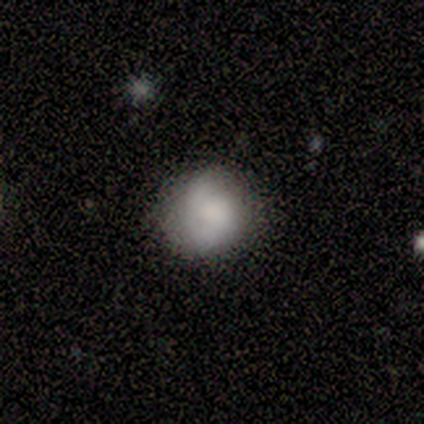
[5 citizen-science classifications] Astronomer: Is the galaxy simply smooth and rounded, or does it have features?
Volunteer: smooth — 60% (runner-up: featured or disk, 40%).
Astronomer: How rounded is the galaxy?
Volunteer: round — 67%.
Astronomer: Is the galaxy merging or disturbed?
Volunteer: none — 80%.